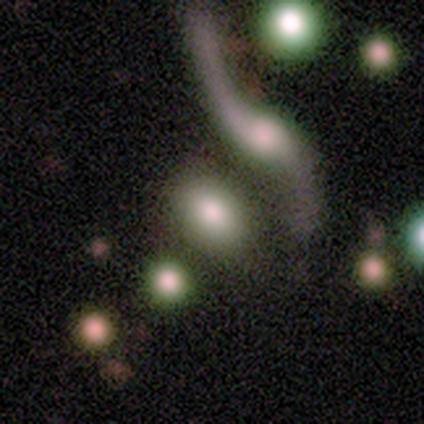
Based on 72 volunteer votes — A smooth galaxy with no disk features (53%) that is in between round and cigar-shaped (76%).

Vote fractions:
- Smooth or featured? smooth: 53% / featured or disk: 39% / star or artifact: 8%
- How rounded? in between: 76% / round: 16% / cigar-shaped: 8%
- Merging? none: 41% / merger: 26% / minor disturbance: 17% / major disturbance: 17%